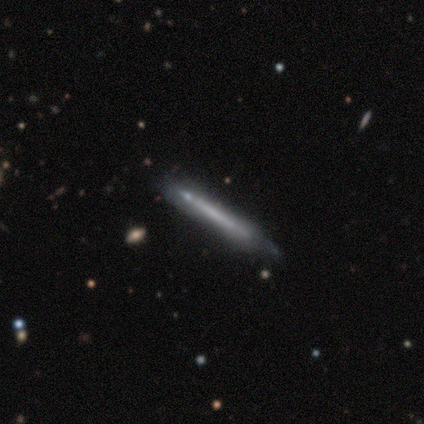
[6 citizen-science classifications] smooth-or-featured: featured or disk: 67% | smooth: 33% | star or artifact: 0%
  disk-edge-on: yes: 100% | no: 0%
    edge-on-bulge: none: 100% | boxy: 0% | rounded: 0%
  merging: none: 83% | minor disturbance: 17% | major disturbance: 0% | merger: 0%